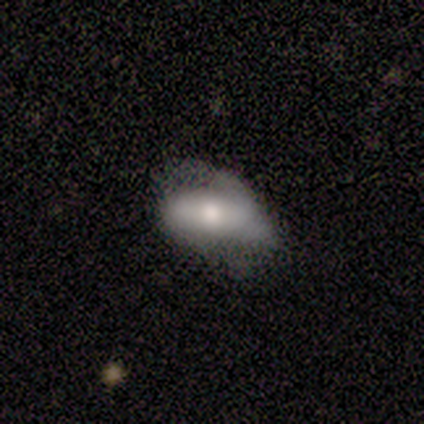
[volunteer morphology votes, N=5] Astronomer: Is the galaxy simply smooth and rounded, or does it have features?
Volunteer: smooth — 100%.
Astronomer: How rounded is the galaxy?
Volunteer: in between — 100%.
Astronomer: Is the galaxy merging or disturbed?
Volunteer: minor disturbance — 40%, tied with major disturbance at 40%.